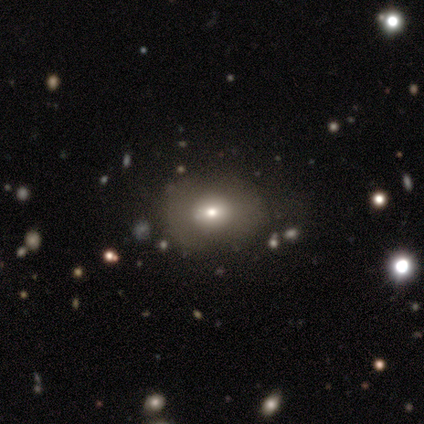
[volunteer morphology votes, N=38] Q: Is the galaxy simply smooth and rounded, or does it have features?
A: smooth — 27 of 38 (71%).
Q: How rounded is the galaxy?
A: in between — 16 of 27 (59%).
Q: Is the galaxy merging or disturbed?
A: none — 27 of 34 (79%).